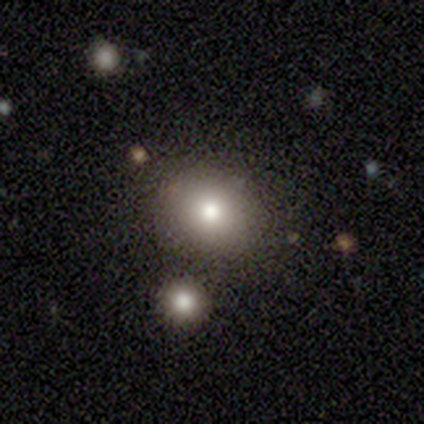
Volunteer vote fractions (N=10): Smooth or featured? 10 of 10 (100%) said smooth. How rounded? 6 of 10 (60%) said in between. Merging? 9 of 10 (90%) said none.